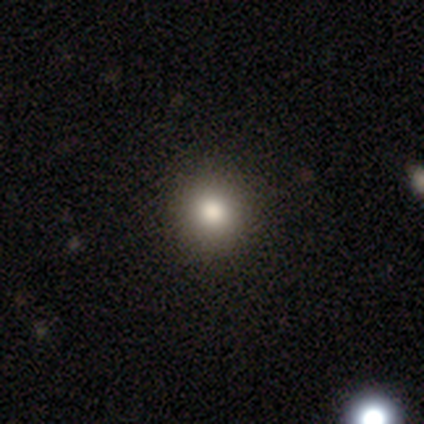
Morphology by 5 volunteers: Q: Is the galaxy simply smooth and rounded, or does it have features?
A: smooth — 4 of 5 (80%).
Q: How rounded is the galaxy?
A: round — 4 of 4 (100%).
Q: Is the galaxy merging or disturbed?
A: none — 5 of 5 (100%).